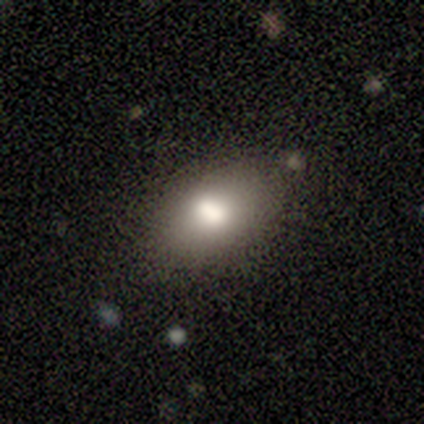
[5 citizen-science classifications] smooth-or-featured: smooth: 100% | featured or disk: 0% | star or artifact: 0%
  how-rounded: in between: 80% | cigar-shaped: 20% | round: 0%
  merging: none: 100% | minor disturbance: 0% | major disturbance: 0% | merger: 0%